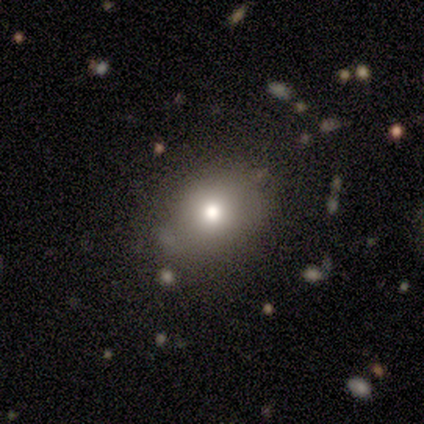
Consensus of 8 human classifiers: smooth 75%, star or artifact 25%, featured or disk 0%. Down the decision tree: how rounded — in between (100%); merging — minor disturbance (50%).